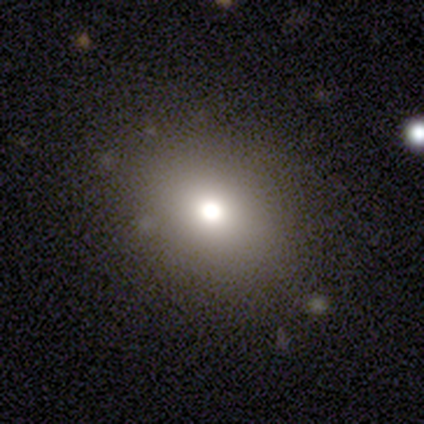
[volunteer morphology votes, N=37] A smooth galaxy with no disk features (70%) that is round (54%). Merging: none (91%).